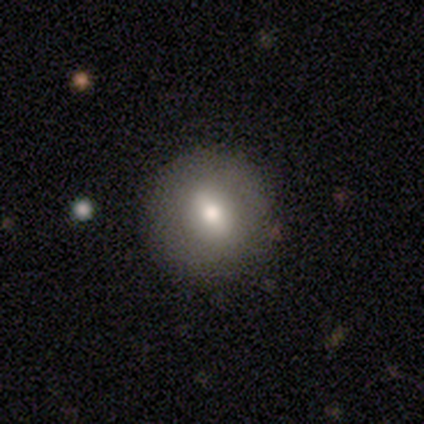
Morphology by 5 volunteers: This is marginally a smooth galaxy (40%, tied with featured or disk). How rounded: clearly round (100%). Merging: clearly none (100%).